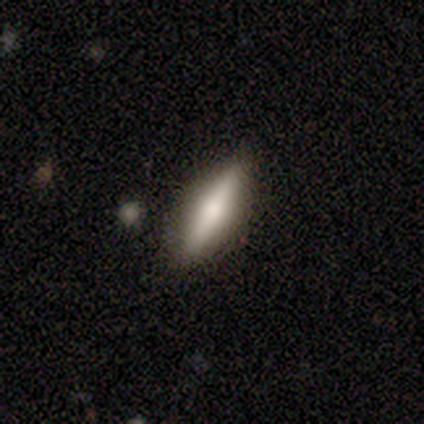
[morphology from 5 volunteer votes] smooth 40% (tied), featured or disk 40% (tied), star or artifact 20%. Down the decision tree: how rounded — cigar-shaped (100%); merging — none (100%).